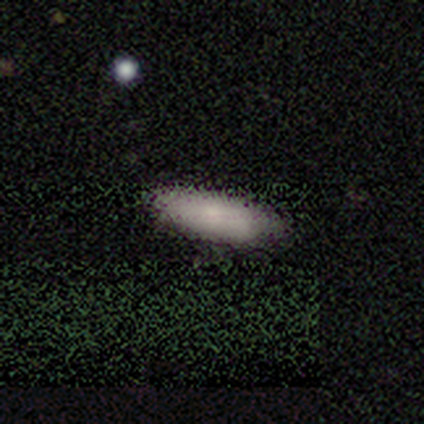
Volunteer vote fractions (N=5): Smooth or featured: smooth — 100%
How rounded: in between — 80% (cigar-shaped — 20%)
Merging: none — 100%